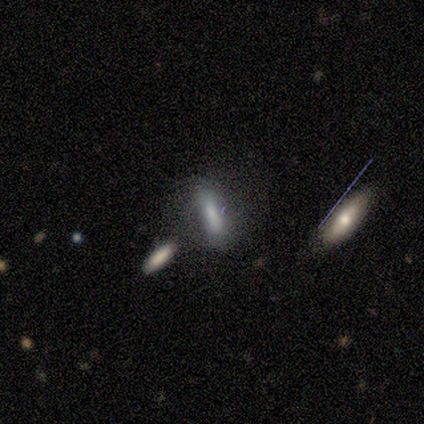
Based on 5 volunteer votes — This appears to be a smooth galaxy with no disk features (80%) that is in between round and cigar-shaped (100%). Merging: none (60%).